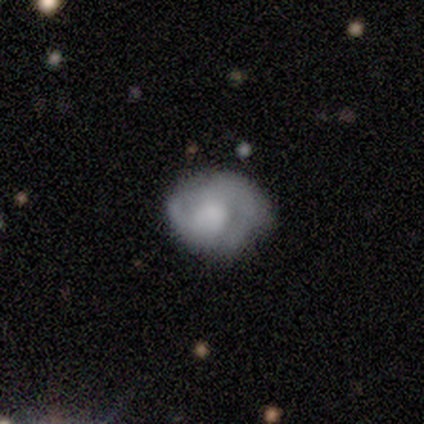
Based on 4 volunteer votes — smooth_or_featured: smooth (p=0.50) [alt: featured or disk p=0.25]
how_rounded: round (p=0.50) [tied with: in between p=0.50]
merging: none (p=0.67) [alt: minor disturbance p=0.33]